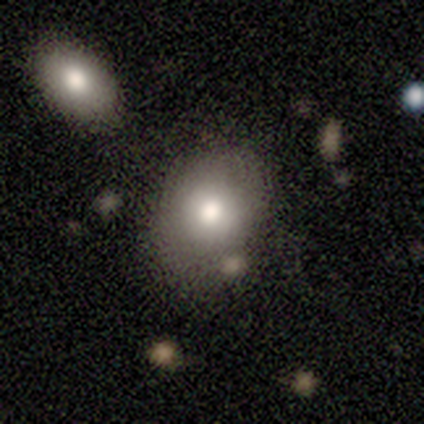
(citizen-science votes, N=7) Smooth or featured: smooth — 86% (featured or disk — 14%)
How rounded: round — 50% (tied with in between — 50%)
Merging: none — 57% (minor disturbance — 14%)